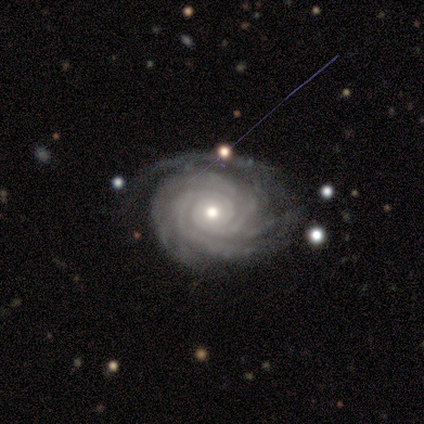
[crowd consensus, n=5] Overall: featured or disk (100%). Edge-on disk: no (100%). Bar: no (100%). Spiral arms: yes (100%). Spiral arm count: 4 (40%, tied with more than 4). Spiral winding: tight (100%). Bulge size: moderate (60%; small 40%). Merging: none (80%).